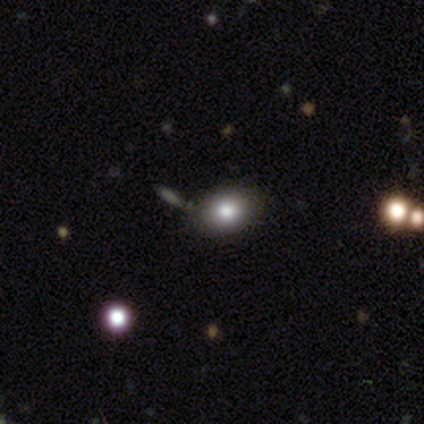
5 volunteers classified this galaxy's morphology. smooth_or_featured: smooth (p=0.80) [alt: featured or disk p=0.20]
how_rounded: round (p=0.50) [tied with: in between p=0.50]
merging: none (p=0.80) [alt: minor disturbance p=0.20]